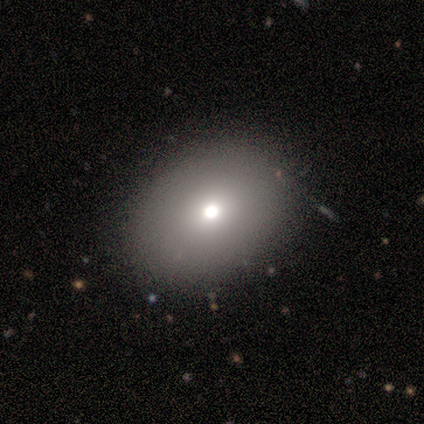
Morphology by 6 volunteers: Overall: smooth (67%). How rounded: in between (75%). Merging: none (80%).